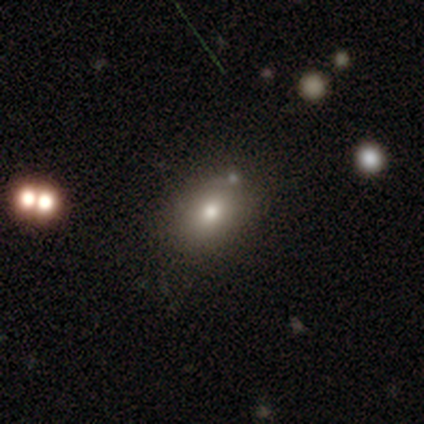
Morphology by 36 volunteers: Smooth or featured: smooth — 83% (featured or disk — 14%)
How rounded: in between — 70% (round — 30%)
Merging: none — 89% (minor disturbance — 11%)